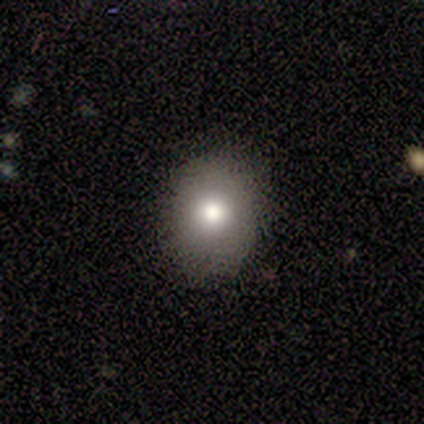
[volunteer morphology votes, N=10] Volunteers were most divided on "how rounded": in between: 60%, round: 40%, cigar-shaped: 0%. More confident: merging — none (88%); smooth or featured — smooth (50%).